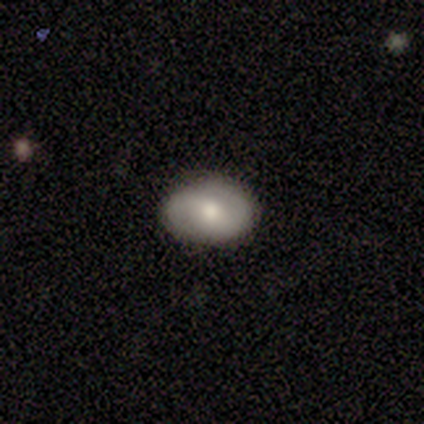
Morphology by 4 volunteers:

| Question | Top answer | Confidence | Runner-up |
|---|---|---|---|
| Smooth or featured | featured or disk | 75% | smooth (25%) |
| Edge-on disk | no | 100% | — |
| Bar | no | 100% | — |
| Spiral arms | yes | 67% | no (33%) |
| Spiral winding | tight | 50% | tied: medium (50%) |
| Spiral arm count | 2 | 100% | — |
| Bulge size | moderate | 67% | none (33%) |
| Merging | none | 100% | — |